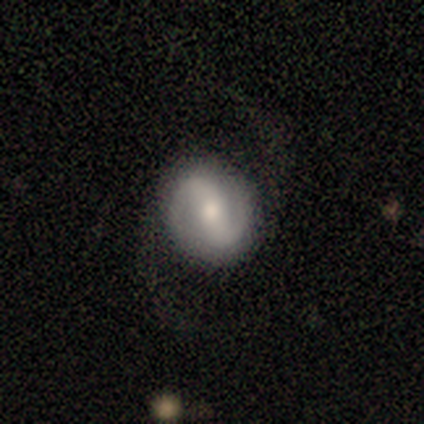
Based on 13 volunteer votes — Morphology: type=featured or disk (85%); edge-on=no (82%); bar=strong (67%); spiral arms=yes (100%); winding=medium (56%); arm count=2 (89%); bulge=moderate (56%); merging=none (67%).